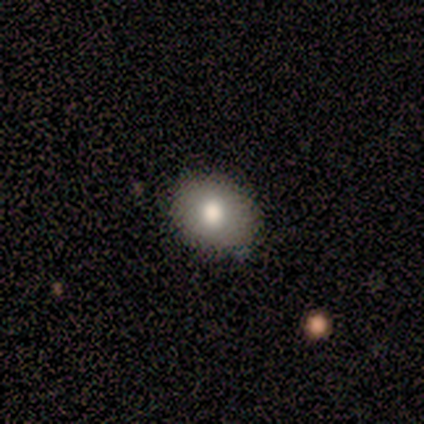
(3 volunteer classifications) A smooth galaxy with no disk features (100%) that is round (67%). Merging: none (100%).